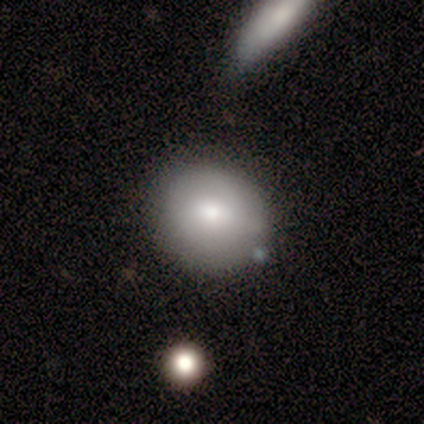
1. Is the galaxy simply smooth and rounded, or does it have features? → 60% smooth, 20% featured or disk, 20% star or artifact.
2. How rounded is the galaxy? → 67% round, 33% in between, 0% cigar-shaped.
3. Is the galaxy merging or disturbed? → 50% minor disturbance, 25% none, 25% merger, 0% major disturbance.